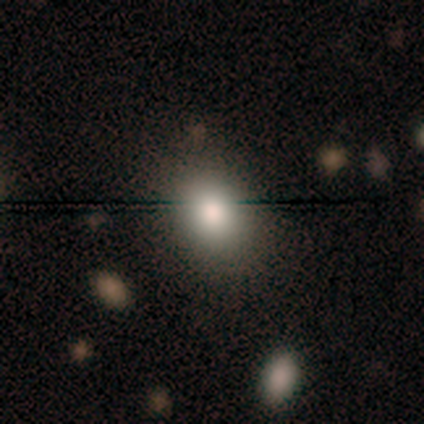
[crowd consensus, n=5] A featured or disk galaxy (40%, tied with star or artifact) with no bar (100%), no spiral arms (100%) and a large central bulge (50%, tied with moderate). Merging: none (100%).